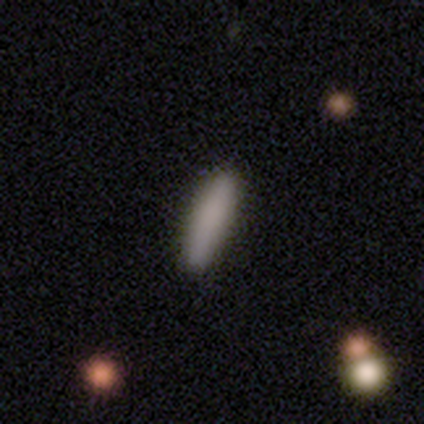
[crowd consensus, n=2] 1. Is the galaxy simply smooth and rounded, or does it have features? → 50% smooth (tied), 50% featured or disk (tied), 0% star or artifact.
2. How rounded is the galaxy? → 100% cigar-shaped, 0% round, 0% in between.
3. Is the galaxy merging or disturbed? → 100% none, 0% minor disturbance, 0% major disturbance, 0% merger.